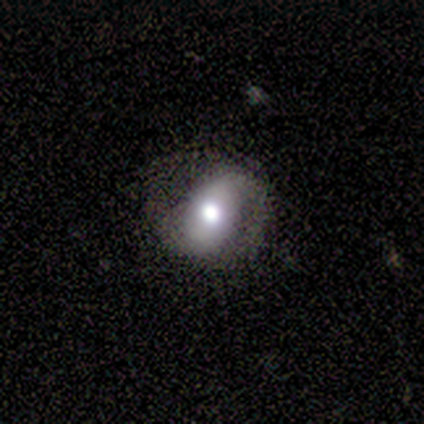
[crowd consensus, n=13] smooth_or_featured: featured or disk (p=0.62) [alt: smooth p=0.38]
disk_edge_on: no (p=1.00)
bar: no (p=0.62) [alt: weak p=0.38]
has_spiral_arms: yes (p=0.62) [alt: no p=0.38]
spiral_winding: loose (p=0.80) [alt: medium p=0.20]
spiral_arm_count: 2 (p=0.80) [alt: 1 p=0.20]
bulge_size: large (p=0.38) [alt: moderate p=0.25]
merging: none (p=0.54) [alt: minor disturbance p=0.38]